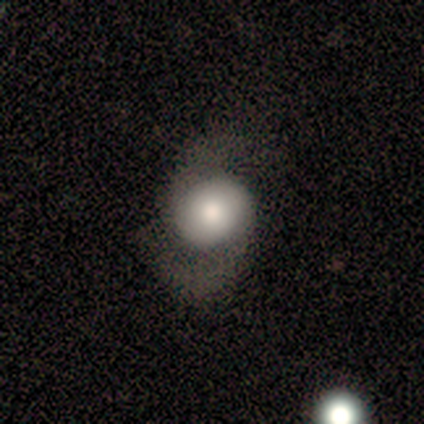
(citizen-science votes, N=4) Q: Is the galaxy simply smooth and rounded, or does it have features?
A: smooth — 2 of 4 (50%, tied with featured or disk).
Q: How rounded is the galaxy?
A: round — 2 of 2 (100%).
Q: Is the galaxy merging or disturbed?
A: none — 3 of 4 (75%).